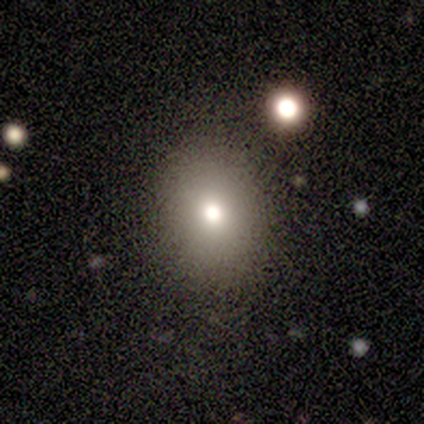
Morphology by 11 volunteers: Smooth or featured: smooth — 73% (featured or disk — 18%)
How rounded: in between — 62% (round — 38%)
Merging: none — 100%